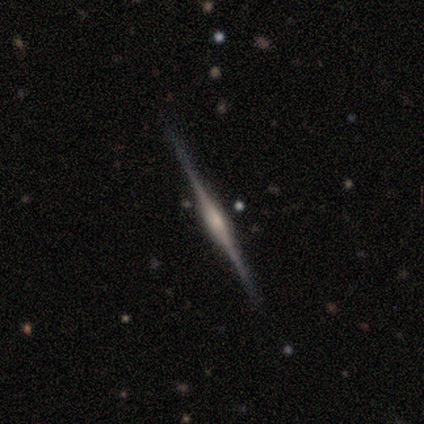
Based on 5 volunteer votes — smooth-or-featured: featured or disk: 100% | smooth: 0% | star or artifact: 0%
  disk-edge-on: yes: 100% | no: 0%
    edge-on-bulge: rounded: 60% | boxy: 20% | none: 20%
  merging: none: 60% | minor disturbance: 40% | major disturbance: 0% | merger: 0%